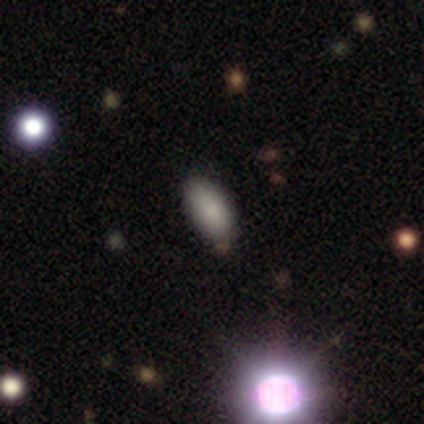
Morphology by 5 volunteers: Smooth or featured? smooth (60%)
How rounded? in between (67%)
Merging? none (100%)